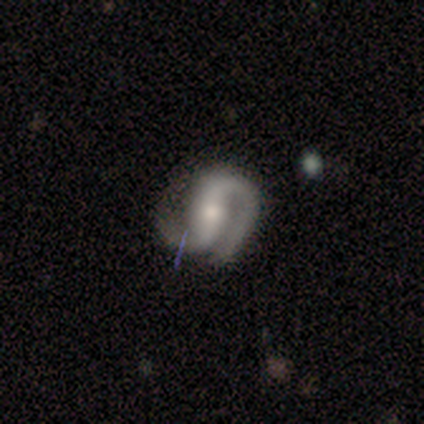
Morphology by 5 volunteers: Q: Smooth or featured?
A: featured or disk (100%)
Q: Edge-on disk?
A: no (100%)
Q: Bar?
A: strong (60%); runner-up: weak (40%)
Q: Spiral arms?
A: yes (100%)
Q: Spiral winding?
A: medium (60%); runner-up: tight (20%)
Q: Spiral arm count?
A: 2 (100%)
Q: Bulge size?
A: moderate (60%); runner-up: large (20%)
Q: Merging?
A: major disturbance (40%); runner-up: none (20%)